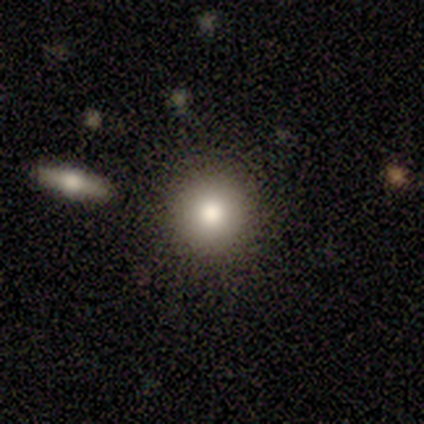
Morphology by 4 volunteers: Volunteers were most divided on "merging": none: 67%, merger: 33%, minor disturbance: 0%, major disturbance: 0%. More confident: how rounded — round (100%); smooth or featured — smooth (75%).